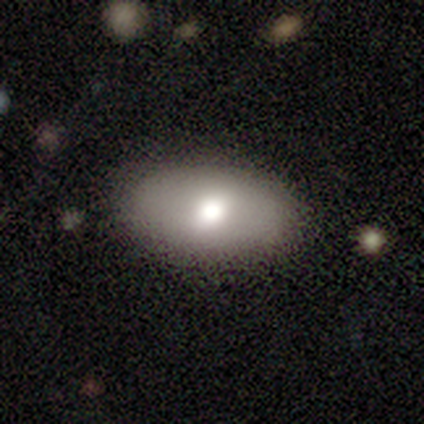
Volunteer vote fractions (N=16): smooth_or_featured: smooth (p=0.75) [alt: featured or disk p=0.19]
how_rounded: in between (p=1.00)
merging: none (p=0.93) [alt: major disturbance p=0.07]